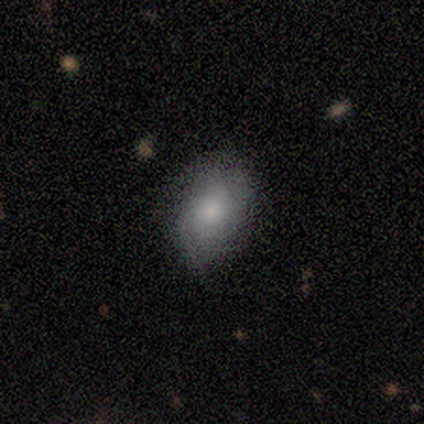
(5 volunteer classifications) A smooth galaxy with no disk features (60%) that is in between round and cigar-shaped (100%). Merging: none (60%).